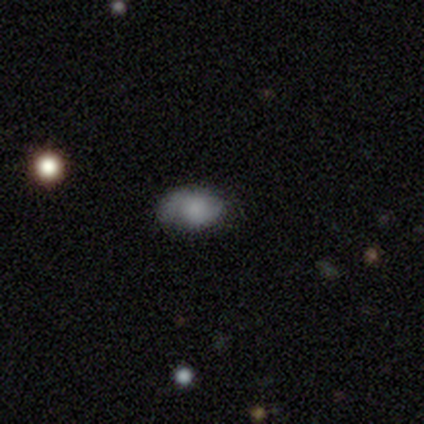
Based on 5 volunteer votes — smooth 60%, featured or disk 20%, star or artifact 20%. Down the decision tree: how rounded — in between (100%); merging — minor disturbance (75%).